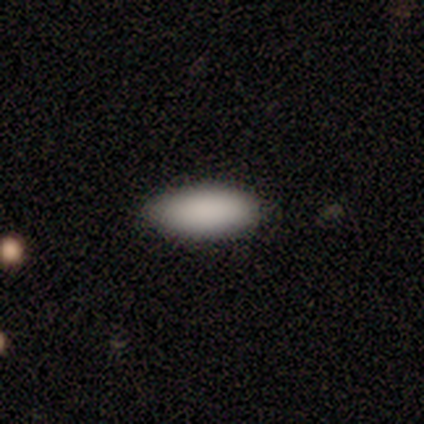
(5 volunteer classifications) Smooth or featured? 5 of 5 (100%) said smooth. How rounded? 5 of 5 (100%) said in between. Merging? 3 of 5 (60%) said none.